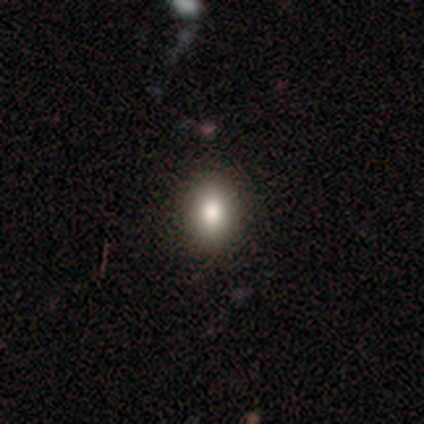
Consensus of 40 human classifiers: Smooth or featured? smooth (88%)
How rounded? round (46%)
Merging? none (87%)